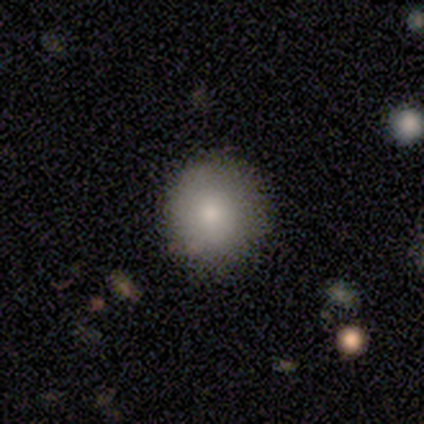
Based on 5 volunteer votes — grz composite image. It shows a smooth galaxy with no disk features (100%) that is round (100%). Merging: none (80%).